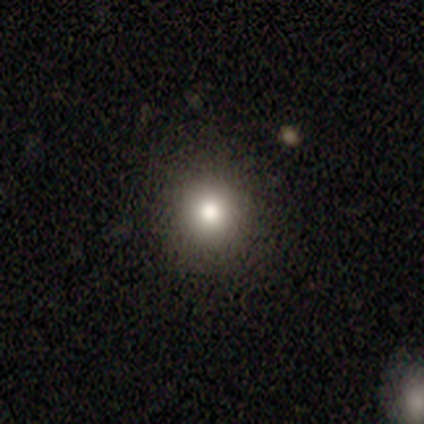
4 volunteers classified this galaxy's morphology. smooth 50% (tied), star or artifact 50% (tied), featured or disk 0%. Down the decision tree: how rounded — round (100%); merging — none (100%).